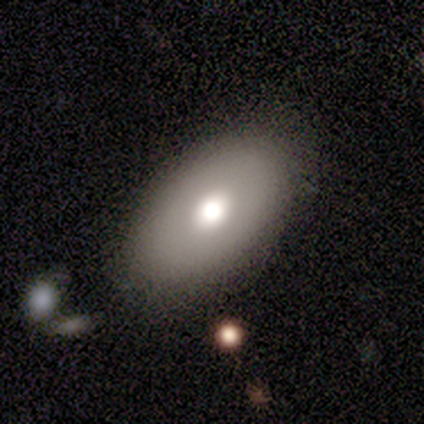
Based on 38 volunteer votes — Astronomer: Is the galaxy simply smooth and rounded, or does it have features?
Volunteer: smooth — 68%.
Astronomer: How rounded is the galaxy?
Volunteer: in between — 88%.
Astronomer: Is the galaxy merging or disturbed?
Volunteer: none — 83%.